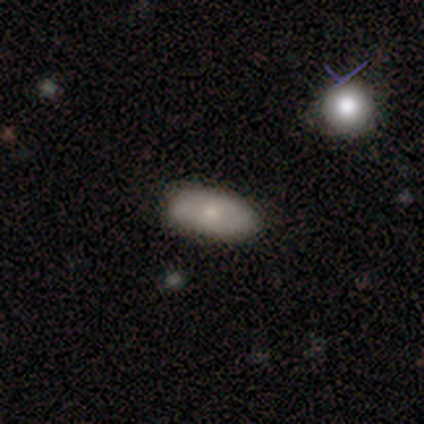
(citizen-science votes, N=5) smooth 60%, featured or disk 20%, star or artifact 20%. Down the decision tree: how rounded — in between (100%); merging — none (75%).